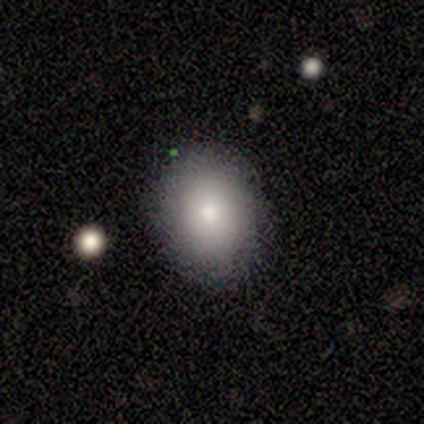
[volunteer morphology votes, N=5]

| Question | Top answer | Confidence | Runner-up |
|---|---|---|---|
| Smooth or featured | smooth | 60% | featured or disk (20%) |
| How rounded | in between | 100% | — |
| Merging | none | 100% | — |